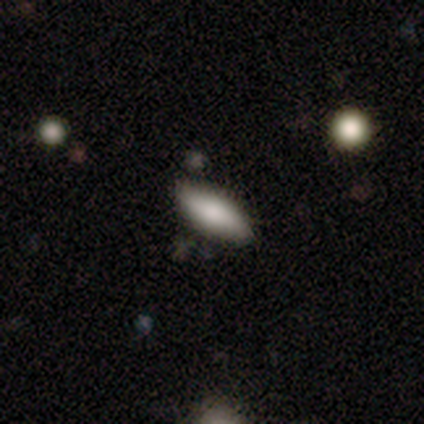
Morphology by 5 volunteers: type=smooth (80%); roundness=in between (50%, tied with cigar-shaped); merging=none (100%).